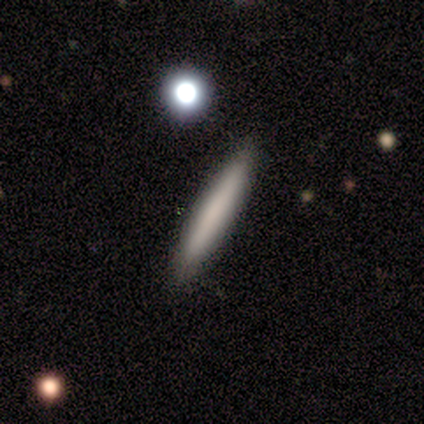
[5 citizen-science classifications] Q: Smooth or featured?
A: smooth (80%); runner-up: featured or disk (20%)
Q: How rounded?
A: cigar-shaped (100%)
Q: Merging?
A: none (100%)